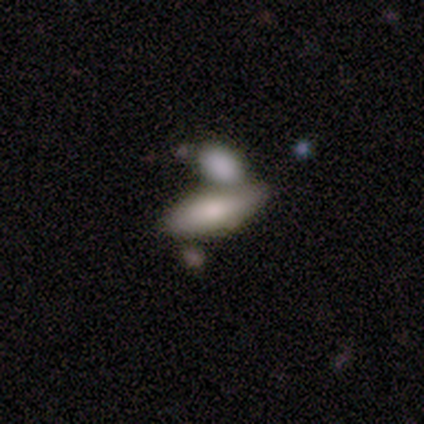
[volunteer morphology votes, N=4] Volunteers were most divided on "smooth or featured": smooth: 75%, featured or disk: 25%, star or artifact: 0%. More confident: how rounded — in between (100%); merging — merger (75%).